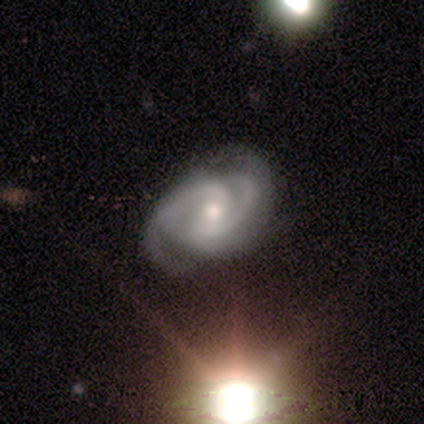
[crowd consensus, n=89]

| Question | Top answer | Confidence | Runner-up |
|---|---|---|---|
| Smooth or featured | featured or disk | 88% | star or artifact (10%) |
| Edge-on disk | no | 96% | yes (4%) |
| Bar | weak | 44% | no (43%) |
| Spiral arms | yes | 100% | — |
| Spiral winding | tight | 48% | tied: medium (48%) |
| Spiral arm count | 2 | 72% | 3 (13%) |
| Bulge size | moderate | 59% | small (41%) |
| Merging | none | 60% | minor disturbance (28%) |